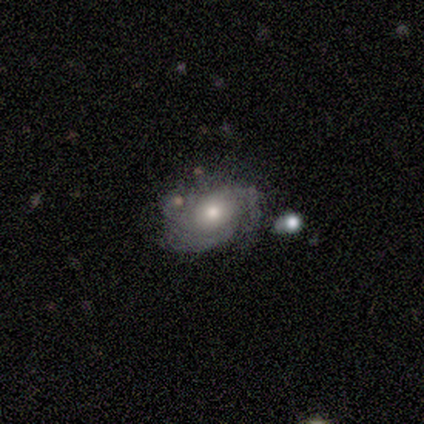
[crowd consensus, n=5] Smooth or featured? 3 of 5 (60%) said featured or disk. Edge-on disk? 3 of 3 (100%) said no. Bar? 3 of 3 (100%) said no. Spiral arms? 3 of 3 (100%) said yes. Spiral winding? 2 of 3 (67%) said medium. Spiral arm count? 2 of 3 (67%) said 2. Bulge size? 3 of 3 (100%) said moderate. Merging? 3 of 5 (60%) said minor disturbance.